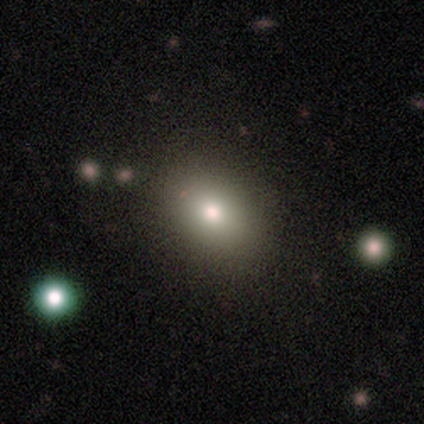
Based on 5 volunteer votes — Smooth or featured? 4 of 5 (80%) said smooth. How rounded? 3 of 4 (75%) said in between. Merging? 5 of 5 (100%) said none.